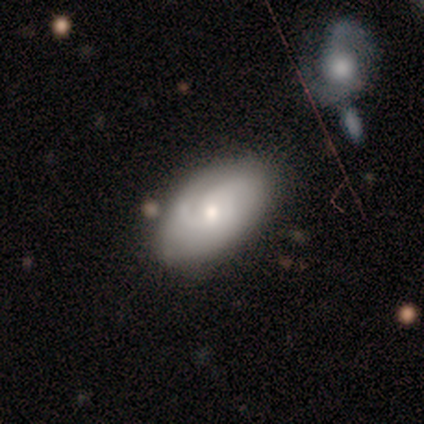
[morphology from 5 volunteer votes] A featured or disk galaxy (60%) with no bar (67%), 2 (33%, tied with 3 and can't tell) tight (67%) spiral arms (100%) and a moderate central bulge (67%).

Vote fractions:
- Smooth or featured? featured or disk: 60% / smooth: 40% / star or artifact: 0%
- Edge-on disk? no: 100% / yes: 0%
- Bar? no: 67% / weak: 33% / strong: 0%
- Spiral arms? yes: 100% / no: 0%
- Spiral winding? tight: 67% / medium: 33% / loose: 0%
- Spiral arm count? 2: 33% (tied) / 3: 33% (tied) / can't tell: 33% (tied) / 1: 0% / 4: 0% / more than 4: 0%
- Bulge size? moderate: 67% / small: 33% / dominant: 0% / large: 0% / none: 0%
- Merging? none: 60% / minor disturbance: 40% / major disturbance: 0% / merger: 0%